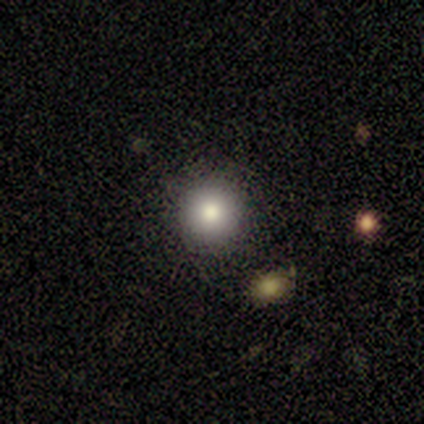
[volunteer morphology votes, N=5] This is clearly a smooth galaxy (80%). How rounded: likely round (75%). Merging: clearly none (100%).